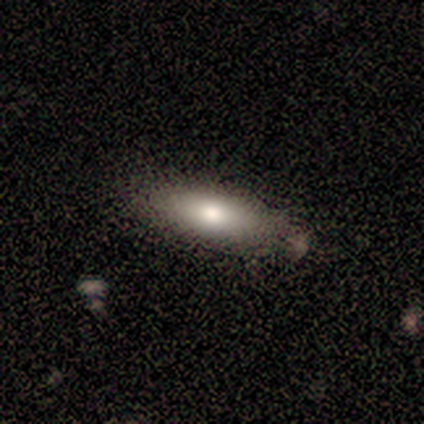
smooth_or_featured: smooth (p=0.80) [alt: featured or disk p=0.20]
how_rounded: in between (p=0.50) [tied with: cigar-shaped p=0.50]
merging: none (p=0.80) [alt: minor disturbance p=0.20]